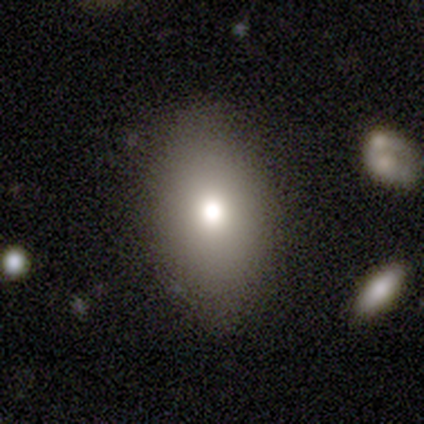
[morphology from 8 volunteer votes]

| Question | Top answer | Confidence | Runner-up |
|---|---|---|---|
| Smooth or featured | smooth | 88% | featured or disk (12%) |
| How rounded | in between | 100% | — |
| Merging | none | 88% | minor disturbance (12%) |